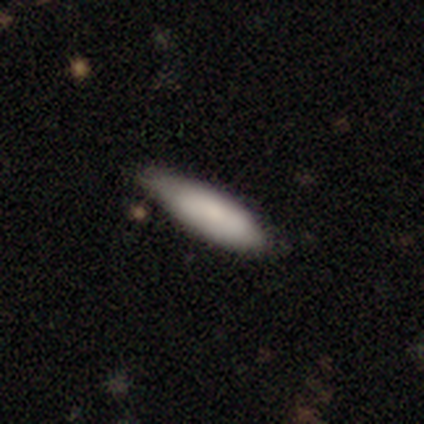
Morphology: type=smooth (77%); roundness=cigar-shaped (60%); merging=none (54%).